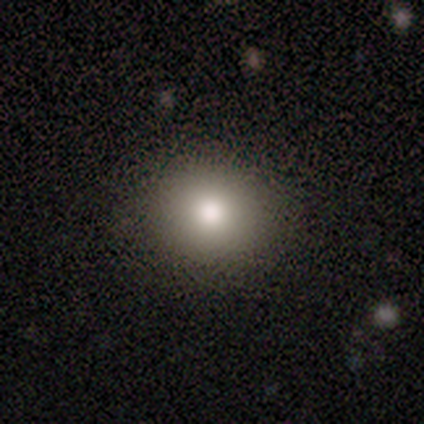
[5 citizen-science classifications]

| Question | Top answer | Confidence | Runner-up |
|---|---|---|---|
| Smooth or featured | smooth | 80% | star or artifact (20%) |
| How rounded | round | 100% | — |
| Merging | none | 75% | minor disturbance (25%) |